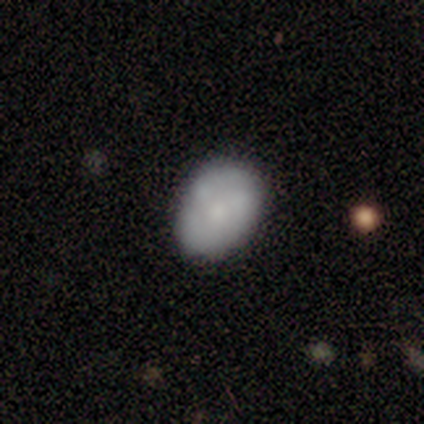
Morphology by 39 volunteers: type=smooth (74%); roundness=in between (66%); merging=none (82%).